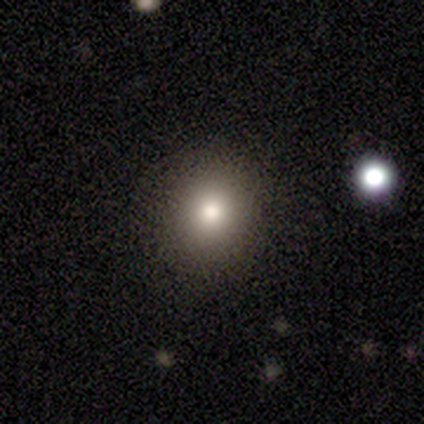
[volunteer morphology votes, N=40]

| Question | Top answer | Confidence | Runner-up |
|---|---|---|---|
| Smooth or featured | smooth | 70% | featured or disk (20%) |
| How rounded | round | 86% | in between (14%) |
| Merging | none | 94% | minor disturbance (6%) |